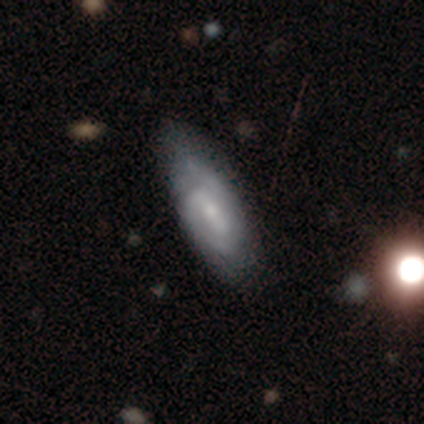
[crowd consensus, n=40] Smooth or featured?
  - featured or disk: 85% *
  - smooth: 10%
  - star or artifact: 5%
Edge-on disk?
  - no: 100% *
  - yes: 0%
Bar?
  - weak: 59% *
  - no: 29%
  - strong: 12%
Spiral arms?
  - yes: 94% *
  - no: 6%
Spiral winding?
  - tight: 56% *
  - medium: 34%
  - loose: 9%
Spiral arm count?
  - 2: 75% *
  - can't tell: 19%
  - 1: 6%
  - 3: 0%
  - 4: 0%
  - more than 4: 0%
Bulge size?
  - small: 47% *
  - moderate: 41%
  - none: 9%
  - large: 3%
  - dominant: 0%
Merging?
  - none: 66% *
  - minor disturbance: 8%
  - major disturbance: 0%
  - merger: 0%